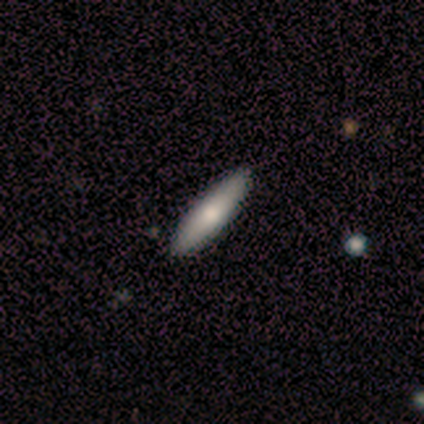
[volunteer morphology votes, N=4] A smooth galaxy with no disk features (75%) that is in between round and cigar-shaped (67%). Merging: none (100%).